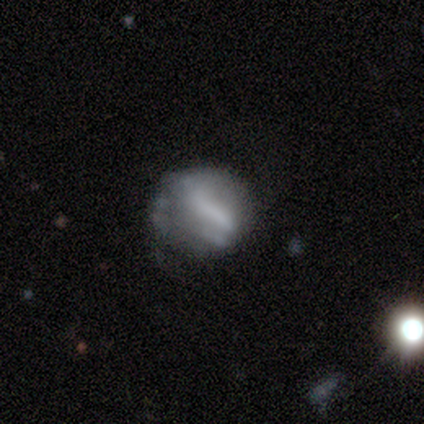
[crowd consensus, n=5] Smooth or featured? 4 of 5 (80%) said featured or disk. Edge-on disk? 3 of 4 (75%) said no. Bar? 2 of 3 (67%) said no. Spiral arms? 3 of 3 (100%) said no. Bulge size? 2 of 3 (67%) said none. Merging? 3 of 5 (60%) said major disturbance.